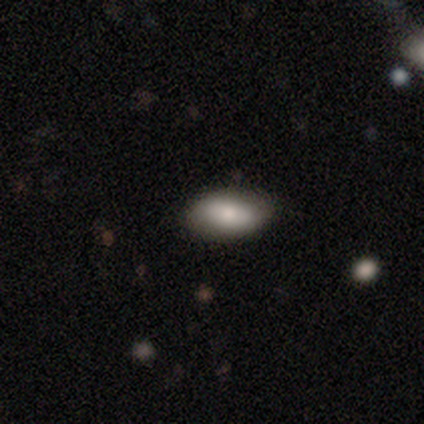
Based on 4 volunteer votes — A smooth galaxy with no disk features (75%) that is in between round and cigar-shaped (100%).

Vote fractions:
- Smooth or featured? smooth: 75% / featured or disk: 25% / star or artifact: 0%
- How rounded? in between: 100% / round: 0% / cigar-shaped: 0%
- Merging? none: 100% / minor disturbance: 0% / major disturbance: 0% / merger: 0%